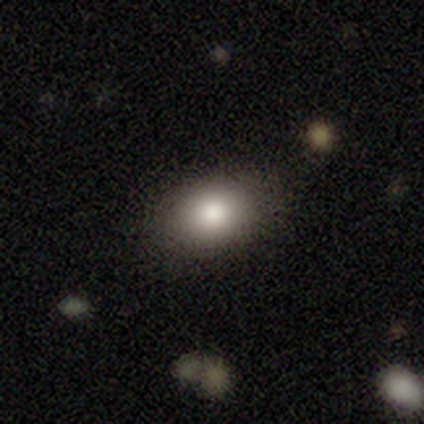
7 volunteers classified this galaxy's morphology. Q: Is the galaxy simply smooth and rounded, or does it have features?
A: smooth — 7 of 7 (100%).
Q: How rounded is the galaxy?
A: in between — 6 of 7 (86%).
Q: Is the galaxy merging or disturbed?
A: none — 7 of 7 (100%).